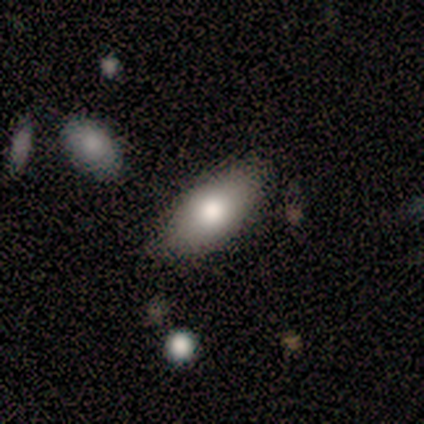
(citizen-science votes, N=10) Q: Smooth or featured?
A: smooth (70%); runner-up: featured or disk (30%)
Q: How rounded?
A: in between (100%)
Q: Merging?
A: none (90%); runner-up: minor disturbance (10%)